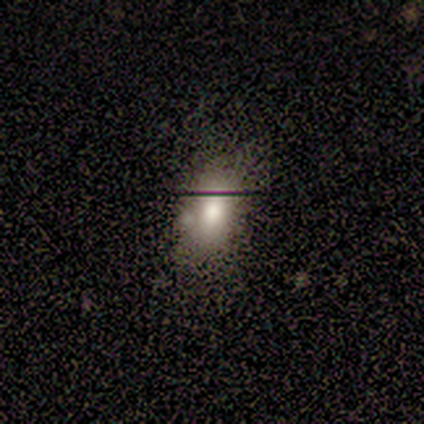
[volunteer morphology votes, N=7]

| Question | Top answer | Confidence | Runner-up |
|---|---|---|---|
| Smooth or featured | smooth | 86% | featured or disk (14%) |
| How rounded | in between | 100% | — |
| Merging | none | 71% | minor disturbance (14%) |